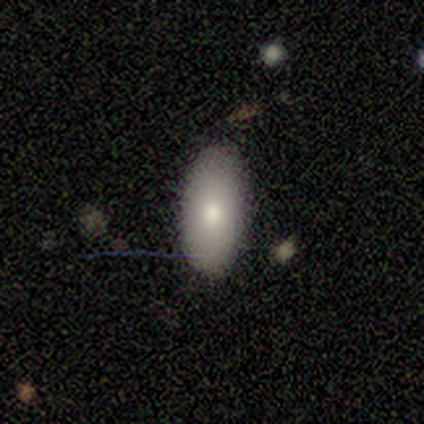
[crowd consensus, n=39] Q: Smooth or featured?
A: smooth (72%); runner-up: featured or disk (15%)
Q: How rounded?
A: in between (89%); runner-up: round (7%)
Q: Merging?
A: none (94%); runner-up: minor disturbance (3%)